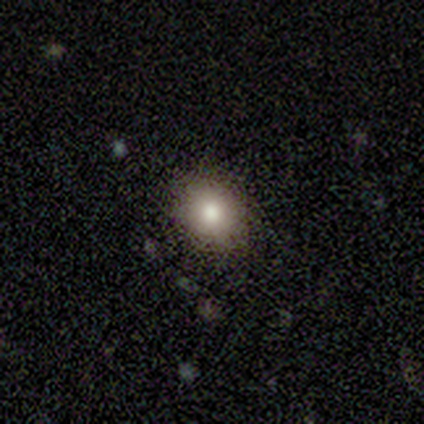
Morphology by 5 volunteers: smooth-or-featured: smooth: 80% | featured or disk: 20% | star or artifact: 0%
  how-rounded: round: 75% | in between: 25% | cigar-shaped: 0%
  merging: minor disturbance: 80% | none: 20% | major disturbance: 0% | merger: 0%